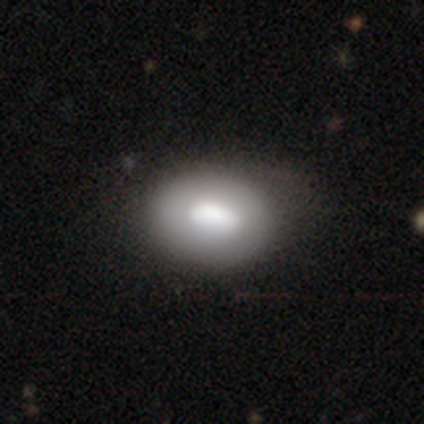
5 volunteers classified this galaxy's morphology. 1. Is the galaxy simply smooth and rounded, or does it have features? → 80% smooth, 20% featured or disk, 0% star or artifact.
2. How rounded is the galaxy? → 50% round (tied), 50% in between (tied), 0% cigar-shaped.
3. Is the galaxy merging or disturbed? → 80% none, 20% major disturbance, 0% minor disturbance, 0% merger.